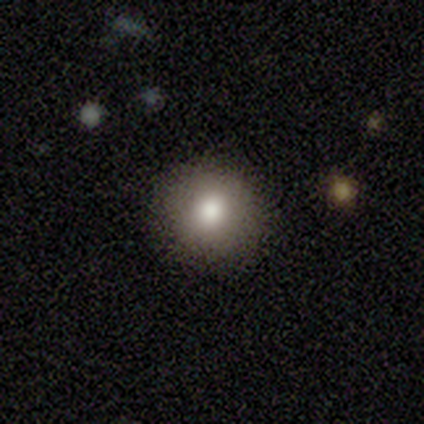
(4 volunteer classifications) Smooth or featured? smooth (100%)
How rounded? round (75%)
Merging? none (100%)